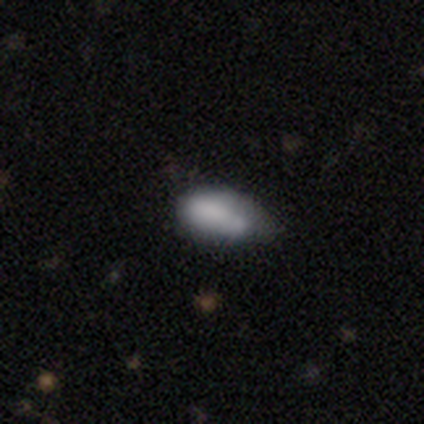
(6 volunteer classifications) Smooth or featured: smooth — 67% (featured or disk — 17%)
How rounded: in between — 75% (cigar-shaped — 25%)
Merging: minor disturbance — 60% (none — 20%)